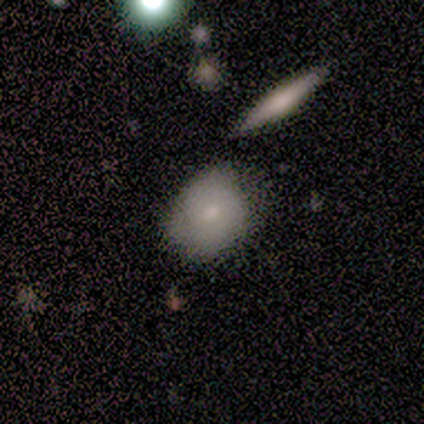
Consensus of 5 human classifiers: Overall: smooth (40%, tied with featured or disk). How rounded: in between (100%). Merging: none (100%).